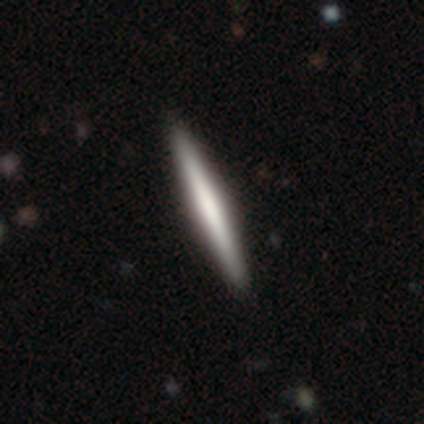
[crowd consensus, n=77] A featured or disk galaxy (62%) viewed edge-on (98%) with no central bulge (45%).

Vote fractions:
- Smooth or featured? featured or disk: 62% / smooth: 36% / star or artifact: 1%
- Edge-on disk? yes: 98% / no: 2%
- Edge-on bulge? none: 45% / rounded: 34% / boxy: 21%
- Merging? none: 49% / minor disturbance: 3% / merger: 1% / major disturbance: 0%